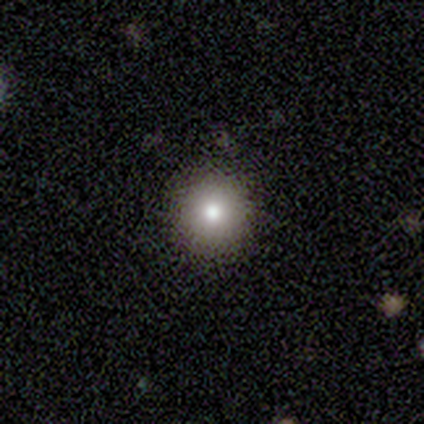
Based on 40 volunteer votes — Volunteers were most divided on "smooth or featured": smooth: 75%, featured or disk: 20%, star or artifact: 5%. More confident: merging — none (92%); how rounded — round (90%).